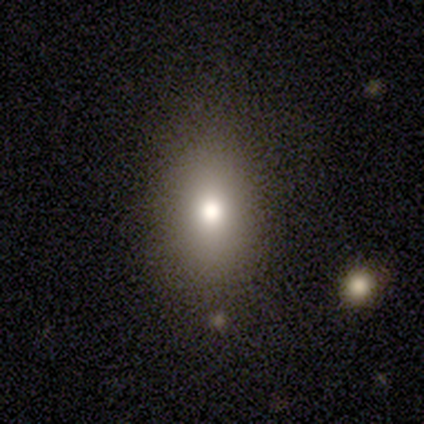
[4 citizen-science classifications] smooth-or-featured: smooth: 50% | featured or disk: 25% | star or artifact: 25%
  how-rounded: in between: 100% | round: 0% | cigar-shaped: 0%
  merging: none: 33% (tied) | minor disturbance: 33% (tied) | major disturbance: 33% (tied) | merger: 0%